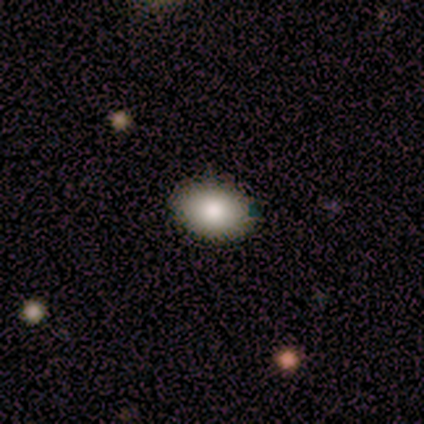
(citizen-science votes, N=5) A smooth galaxy with no disk features (100%) that is in between round and cigar-shaped (80%).

Vote fractions:
- Smooth or featured? smooth: 100% / featured or disk: 0% / star or artifact: 0%
- How rounded? in between: 80% / round: 20% / cigar-shaped: 0%
- Merging? none: 80% / minor disturbance: 20% / major disturbance: 0% / merger: 0%